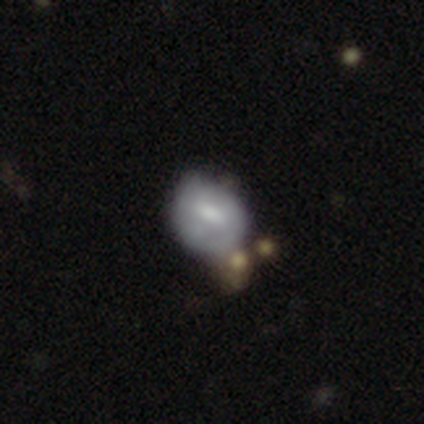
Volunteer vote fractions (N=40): A smooth galaxy with no disk features (45%, tied with featured or disk) that is in between round and cigar-shaped (72%). Merging: minor disturbance (31%, tied with merger).